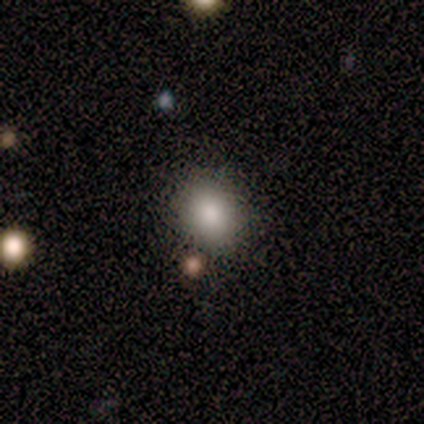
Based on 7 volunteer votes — Morphology: type=smooth (100%); roundness=round (71%); merging=none (86%).